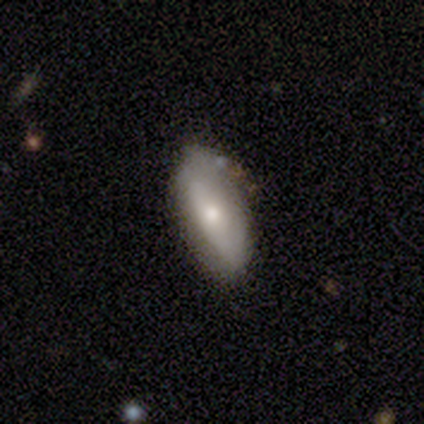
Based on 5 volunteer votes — This is clearly a smooth galaxy (80%). How rounded: clearly in between (100%). Merging: clearly none (80%).